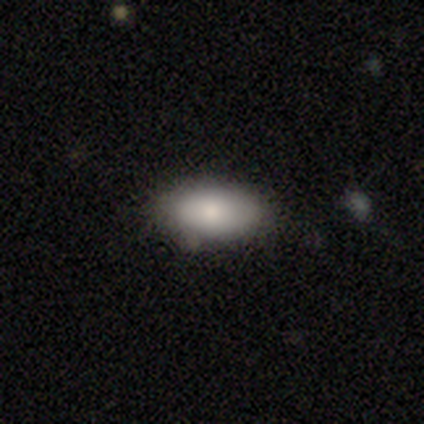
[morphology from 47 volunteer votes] Smooth or featured? smooth (83%)
How rounded? in between (97%)
Merging? none (77%)